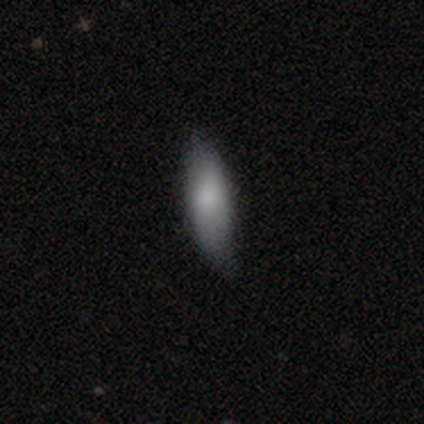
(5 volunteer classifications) Morphology: type=smooth (80%); roundness=in between (50%, tied with cigar-shaped); merging=none (75%).